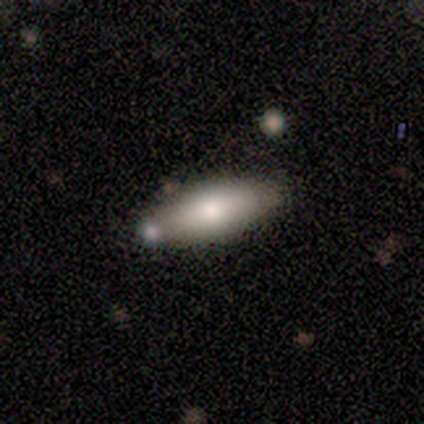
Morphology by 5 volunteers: Smooth or featured?
  - smooth: 80% *
  - featured or disk: 20%
  - star or artifact: 0%
How rounded?
  - in between: 100% *
  - round: 0%
  - cigar-shaped: 0%
Merging?
  - minor disturbance: 40% * (tied)
  - merger: 40% * (tied)
  - none: 20%
  - major disturbance: 0%